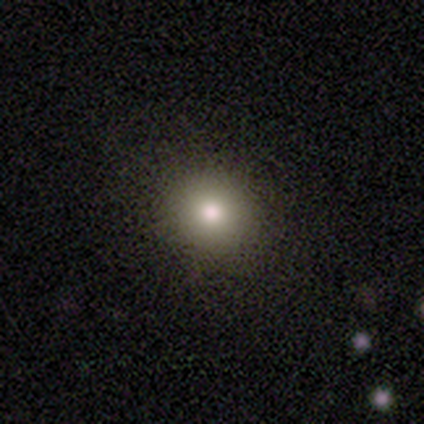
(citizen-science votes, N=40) Smooth or featured? 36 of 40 (90%) said smooth. How rounded? 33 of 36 (92%) said round. Merging? 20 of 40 (50%) said none.